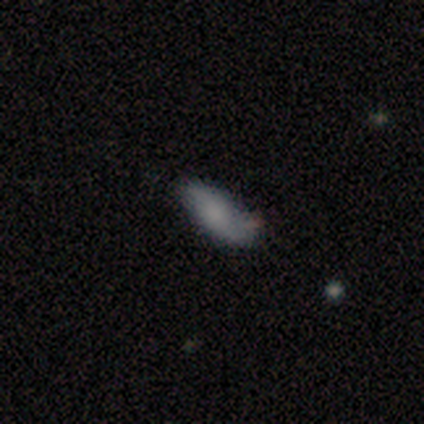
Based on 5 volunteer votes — A smooth galaxy with no disk features (80%) that is in between round and cigar-shaped (75%).

Vote fractions:
- Smooth or featured? smooth: 80% / featured or disk: 20% / star or artifact: 0%
- How rounded? in between: 75% / cigar-shaped: 25% / round: 0%
- Merging? none: 60% / minor disturbance: 40% / major disturbance: 0% / merger: 0%